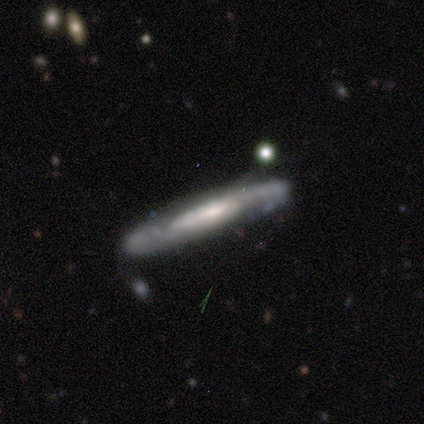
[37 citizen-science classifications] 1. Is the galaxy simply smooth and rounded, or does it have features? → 70% featured or disk, 27% smooth, 3% star or artifact.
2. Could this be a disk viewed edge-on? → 54% yes, 46% no.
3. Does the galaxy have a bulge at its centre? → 64% none, 29% rounded, 7% boxy.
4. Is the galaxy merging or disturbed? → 75% none, 19% minor disturbance, 3% major disturbance, 3% merger.